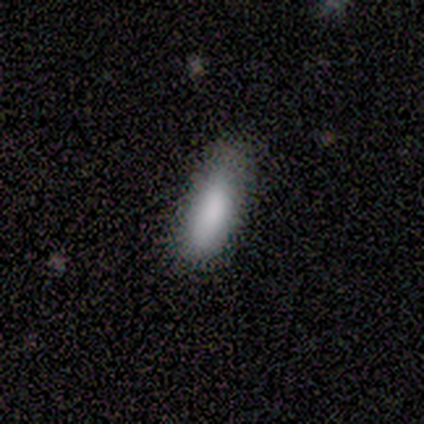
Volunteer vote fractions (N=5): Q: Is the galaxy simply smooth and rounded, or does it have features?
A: smooth — 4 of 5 (80%).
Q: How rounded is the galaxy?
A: in between — 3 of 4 (75%).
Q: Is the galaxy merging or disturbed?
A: none — 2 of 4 (50%, tied with minor disturbance).